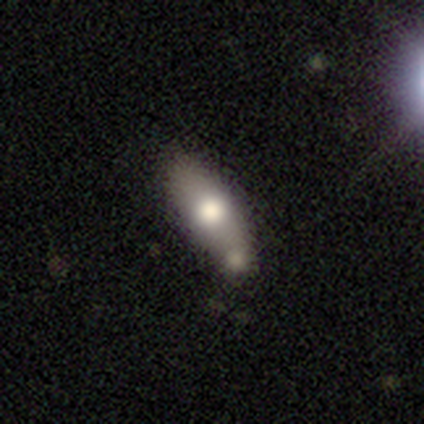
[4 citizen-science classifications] Smooth or featured? 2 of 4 (50%) said featured or disk. Edge-on disk? 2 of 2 (100%) said yes. Edge-on bulge? 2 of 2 (100%) said rounded. Merging? 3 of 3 (100%) said none.